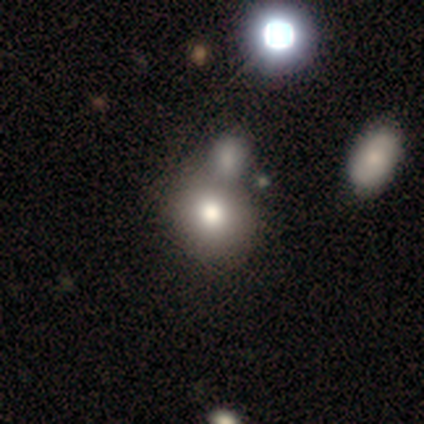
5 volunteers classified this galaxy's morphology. type=smooth (60%); roundness=round (67%); merging=none (67%).